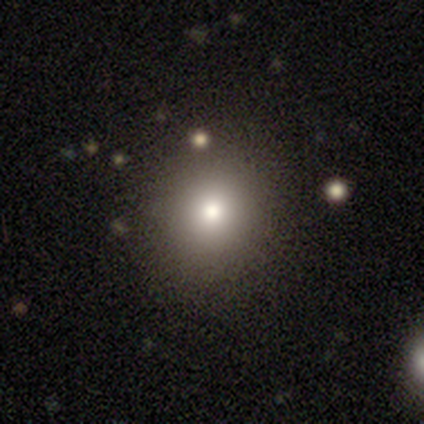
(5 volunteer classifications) Q: Smooth or featured?
A: smooth (80%); runner-up: star or artifact (20%)
Q: How rounded?
A: round (50%); tied with: in between (50%)
Q: Merging?
A: none (50%); runner-up: minor disturbance (25%)